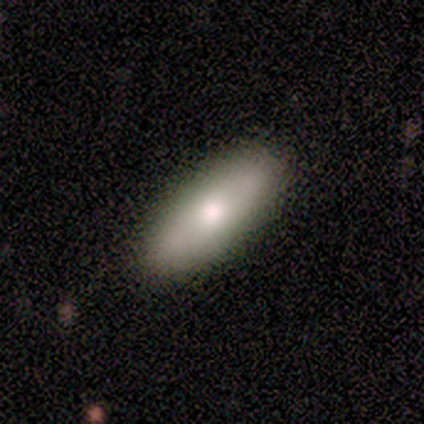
This appears to be a smooth galaxy with no disk features (78%) that is in between round and cigar-shaped (71%). Merging: none (89%).